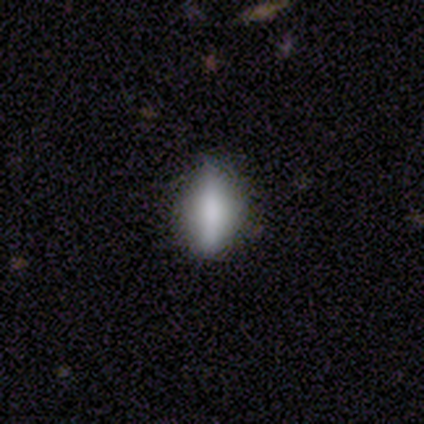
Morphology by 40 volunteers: This is likely a smooth galaxy (68%). How rounded: likely in between (78%). Merging: likely none (72%).